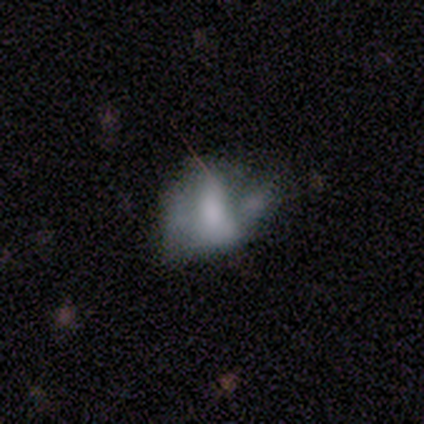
Smooth or featured: featured or disk — 60% (smooth — 40%)
Edge-on disk: no — 100%
Bar: weak — 100%
Spiral arms: yes — 67% (no — 33%)
Spiral winding: medium — 50% (tied with loose — 50%)
Spiral arm count: 2 — 100%
Bulge size: large — 33% (tied with moderate — 33%; small — 33%)
Merging: none — 60% (major disturbance — 20%)